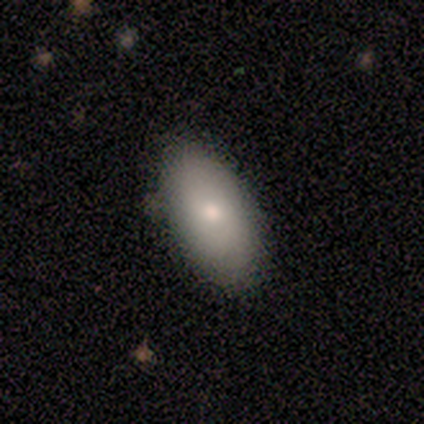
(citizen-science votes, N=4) smooth 75%, star or artifact 25%, featured or disk 0%. Down the decision tree: how rounded — in between (100%); merging — none (67%).